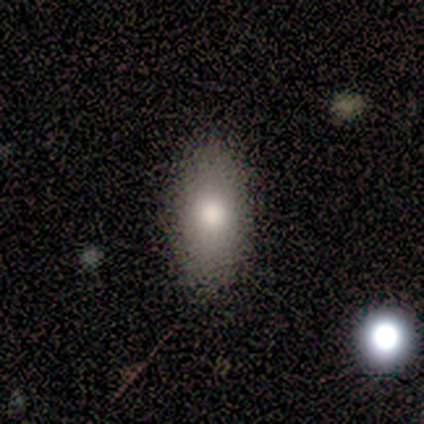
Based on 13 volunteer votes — Smooth or featured? 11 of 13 (85%) said smooth. How rounded? 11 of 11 (100%) said in between. Merging? 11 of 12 (92%) said none.